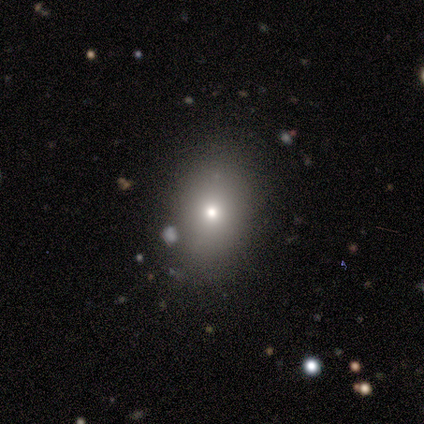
smooth_or_featured: smooth (p=0.50) [tied with: star or artifact p=0.50]
how_rounded: round (p=0.50) [tied with: in between p=0.50]
merging: none (p=1.00)